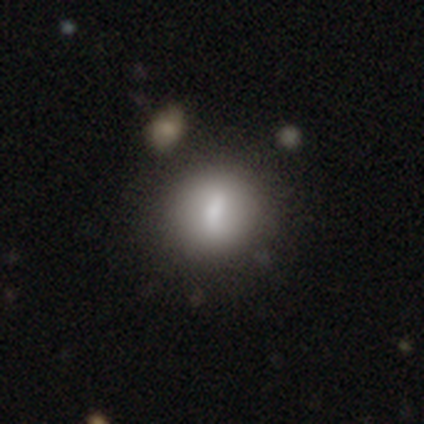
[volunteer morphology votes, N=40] This is likely a smooth galaxy (70%). How rounded: clearly round (86%). Merging: clearly none (86%).